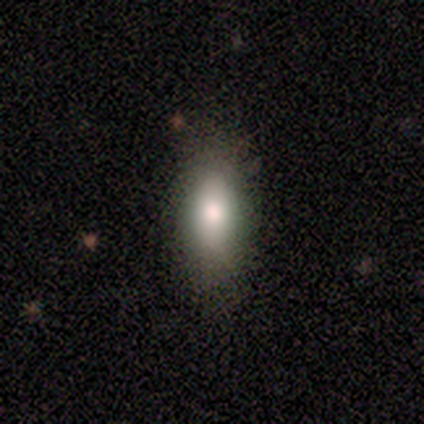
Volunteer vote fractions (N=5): This appears to be a smooth galaxy with no disk features (60%) that is in between round and cigar-shaped (100%). Merging: none (100%).